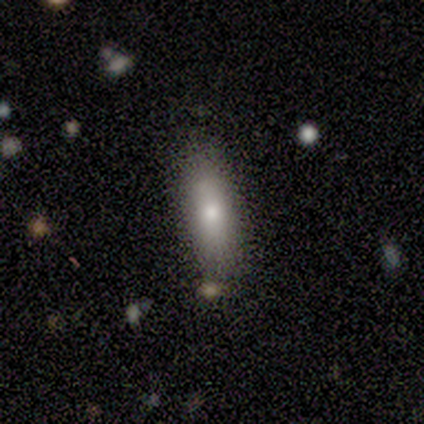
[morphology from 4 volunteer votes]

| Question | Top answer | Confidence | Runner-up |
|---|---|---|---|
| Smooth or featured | smooth | 50% | tied: star or artifact (50%) |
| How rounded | in between | 100% | — |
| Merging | none | 100% | — |